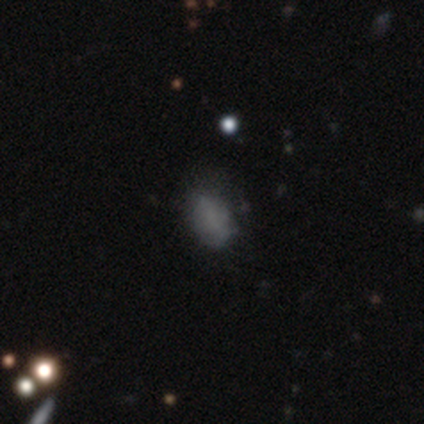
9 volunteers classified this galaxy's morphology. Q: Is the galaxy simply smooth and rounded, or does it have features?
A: smooth — 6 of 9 (67%).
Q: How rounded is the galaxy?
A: in between — 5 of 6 (83%).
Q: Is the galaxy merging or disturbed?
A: minor disturbance — 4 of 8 (50%).